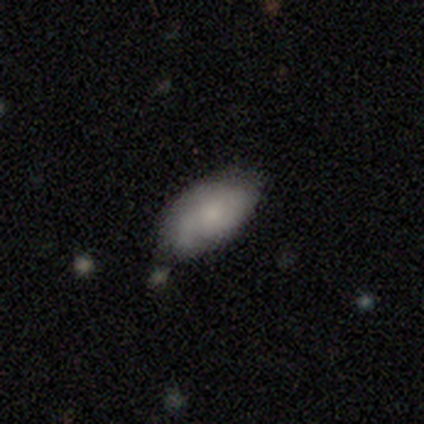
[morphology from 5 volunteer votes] This appears to be a smooth galaxy with no disk features (60%) that is in between round and cigar-shaped (100%). Merging: minor disturbance (60%).